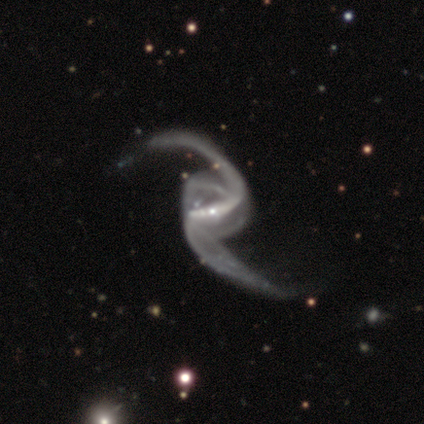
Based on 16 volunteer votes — smooth_or_featured: featured or disk (p=0.94) [alt: smooth p=0.06]
disk_edge_on: no (p=1.00)
bar: strong (p=0.80) [alt: weak p=0.20]
has_spiral_arms: yes (p=1.00)
spiral_winding: loose (p=0.93) [alt: medium p=0.07]
spiral_arm_count: 2 (p=1.00)
bulge_size: small (p=0.80) [alt: moderate p=0.20]
merging: none (p=0.25) [tied with: minor disturbance p=0.25]